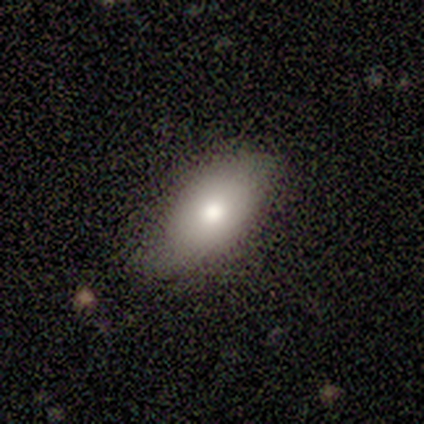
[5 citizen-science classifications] Q: Smooth or featured?
A: smooth (80%); runner-up: featured or disk (20%)
Q: How rounded?
A: in between (75%); runner-up: round (25%)
Q: Merging?
A: minor disturbance (60%); runner-up: none (20%)